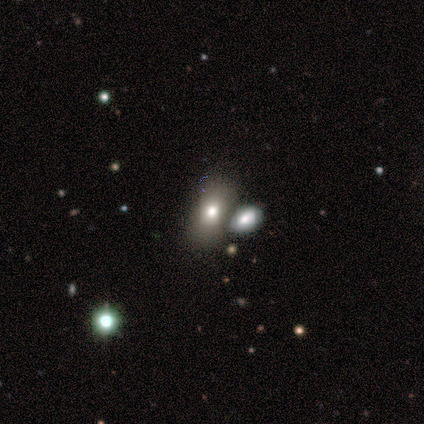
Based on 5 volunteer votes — smooth 60%, featured or disk 20%, star or artifact 20%. Down the decision tree: how rounded — in between (100%); merging — merger (50%).